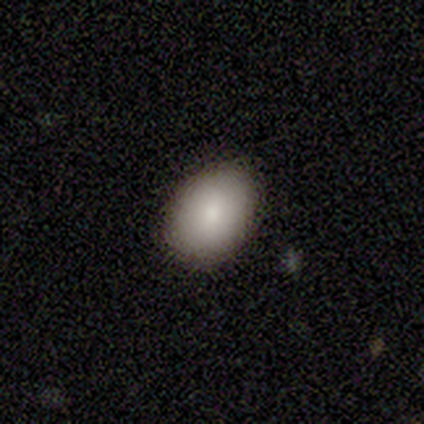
Smooth or featured: smooth — 100%
How rounded: round — 60% (in between — 40%)
Merging: none — 100%